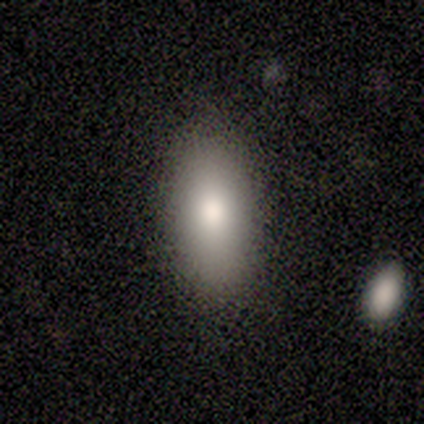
smooth-or-featured: smooth: 100% | featured or disk: 0% | star or artifact: 0%
  how-rounded: in between: 75% | cigar-shaped: 25% | round: 0%
  merging: none: 75% | major disturbance: 25% | minor disturbance: 0% | merger: 0%